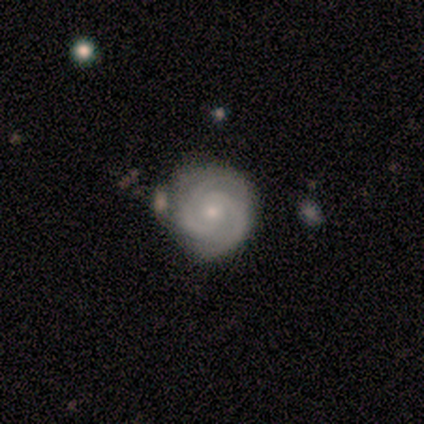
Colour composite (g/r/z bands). It shows a featured or disk galaxy (100%) with no bar (80%), 2 (80%) tight (80%) spiral arms (100%) and a small central bulge (80%). Merging: none (100%).